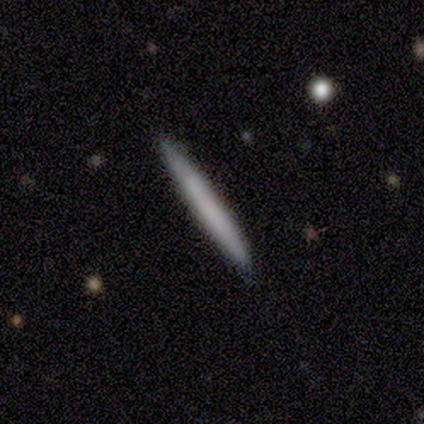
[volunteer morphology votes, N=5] Volunteers were most divided on "smooth or featured": smooth: 60%, featured or disk: 40%, star or artifact: 0%. More confident: how rounded — cigar-shaped (100%); merging — none (100%).